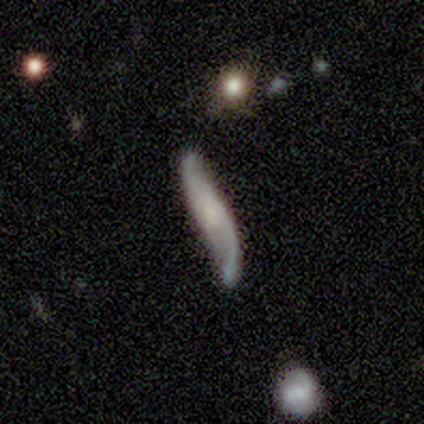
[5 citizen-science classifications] This is clearly a featured or disk galaxy (80%). It is likely viewed edge-on (75%). Edge-on bulge: marginally boxy (33%, tied with none and rounded). Merging: marginally none (40%, tied with major disturbance).